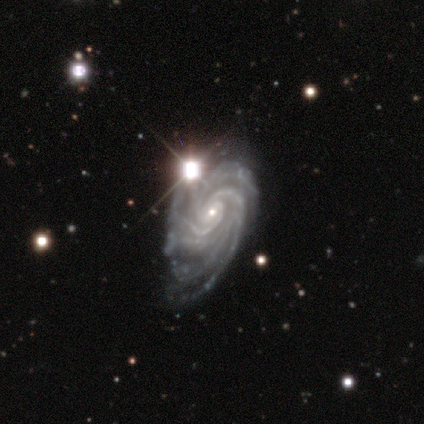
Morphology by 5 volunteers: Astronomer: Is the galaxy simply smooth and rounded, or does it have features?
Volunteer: featured or disk — 100%.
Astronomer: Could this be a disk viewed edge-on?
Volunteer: no — 100%.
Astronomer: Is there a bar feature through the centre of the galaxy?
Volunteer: no — 60%.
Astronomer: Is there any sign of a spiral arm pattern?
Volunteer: yes — 100%.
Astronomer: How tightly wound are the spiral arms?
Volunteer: tight — 60% (runner-up: medium, 40%).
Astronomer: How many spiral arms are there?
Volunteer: more than 4 — 60%.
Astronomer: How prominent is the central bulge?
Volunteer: small — 80%.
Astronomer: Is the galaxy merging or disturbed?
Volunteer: none — 40%, tied with minor disturbance at 40%.